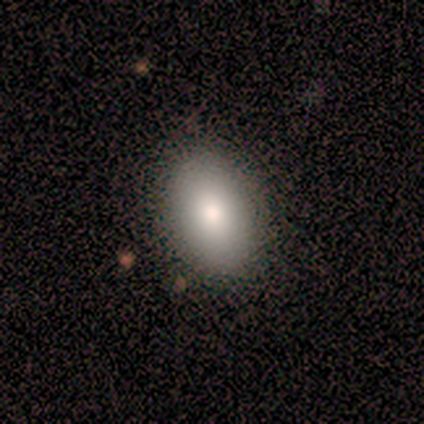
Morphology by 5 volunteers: smooth 80%, featured or disk 20%, star or artifact 0%. Down the decision tree: how rounded — in between (100%); merging — none (100%).